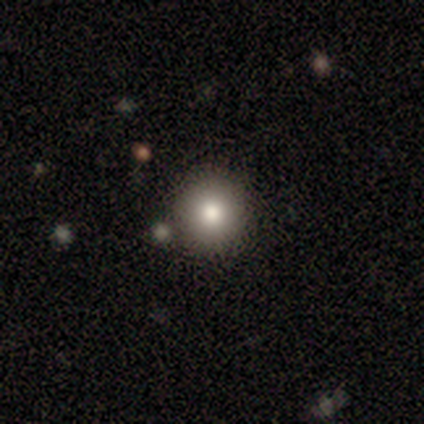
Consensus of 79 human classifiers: A smooth galaxy with no disk features (81%) that is round (98%).

Vote fractions:
- Smooth or featured? smooth: 81% / featured or disk: 11% / star or artifact: 8%
- How rounded? round: 98% / cigar-shaped: 2% / in between: 0%
- Merging? none: 42% / merger: 7% / minor disturbance: 4% / major disturbance: 1%